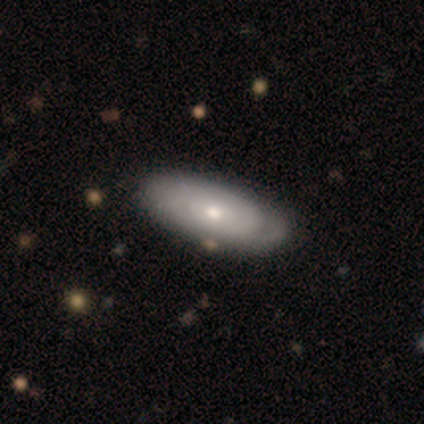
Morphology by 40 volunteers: smooth-or-featured: featured or disk: 57% | smooth: 40% | star or artifact: 2%
  disk-edge-on: no: 87% | yes: 13%
    bar: no: 90% | weak: 10% | strong: 0%
    has-spiral-arms: yes: 80% | no: 20%
      spiral-winding: tight: 75% | medium: 25% | loose: 0%
      spiral-arm-count: can't tell: 69% | 2: 12% | 3: 12% | 1: 6% | 4: 0% | more than 4: 0%
    bulge-size: moderate: 60% | small: 40% | dominant: 0% | large: 0% | none: 0%
  merging: none: 49% | minor disturbance: 10% | merger: 5% | major disturbance: 0%